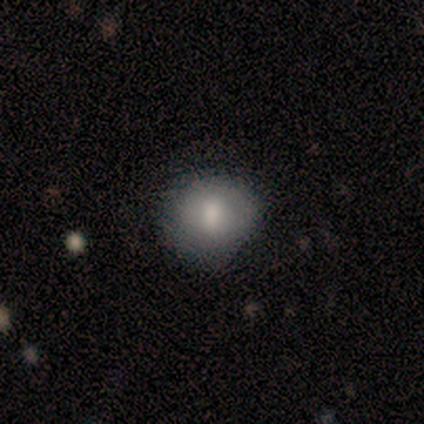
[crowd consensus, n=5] Volunteers were most divided on "merging": none: 60%, minor disturbance: 40%, major disturbance: 0%, merger: 0%. More confident: how rounded — round (100%); smooth or featured — smooth (80%).